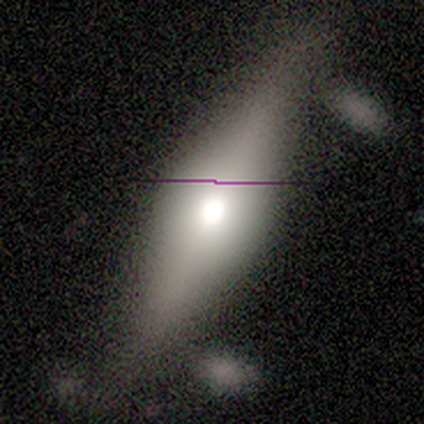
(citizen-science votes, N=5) This appears to be a smooth galaxy with no disk features (60%) that is cigar-shaped (100%). Merging: none (60%).